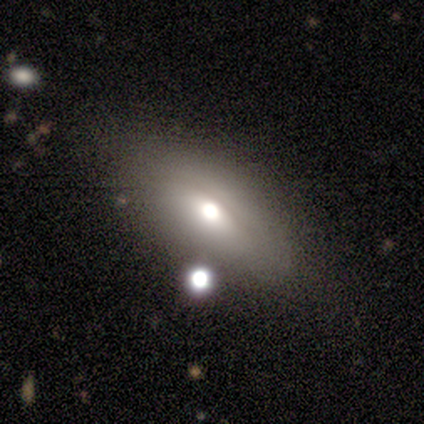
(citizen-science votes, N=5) Q: Smooth or featured?
A: featured or disk (60%); runner-up: smooth (40%)
Q: Edge-on disk?
A: no (67%); runner-up: yes (33%)
Q: Bar?
A: no (100%)
Q: Spiral arms?
A: no (100%)
Q: Bulge size?
A: dominant (50%); tied with: small (50%)
Q: Merging?
A: none (60%); runner-up: minor disturbance (20%)